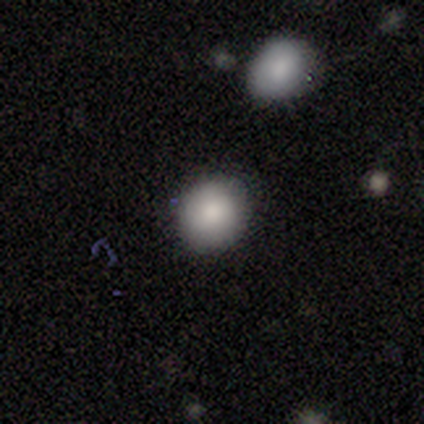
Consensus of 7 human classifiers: smooth_or_featured: smooth (p=0.86) [alt: star or artifact p=0.14]
how_rounded: round (p=0.83) [alt: in between p=0.17]
merging: none (p=1.00)